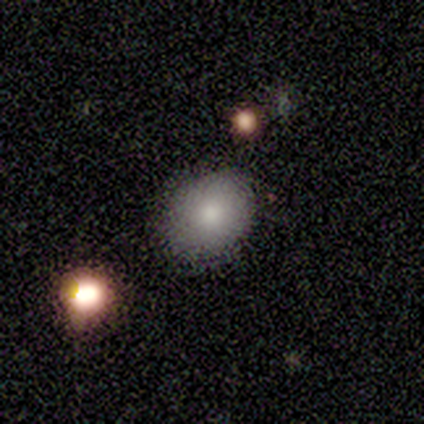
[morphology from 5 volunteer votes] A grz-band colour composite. It shows a smooth galaxy with no disk features (80%) that is round (50%, tied with in between). Merging: none (100%).